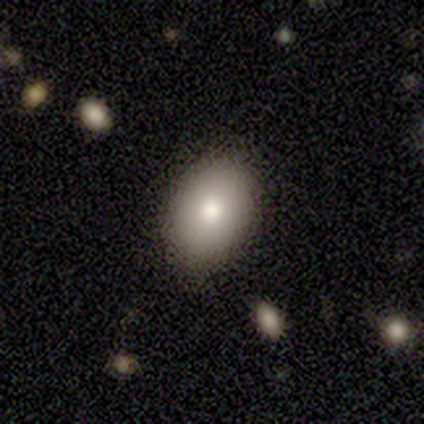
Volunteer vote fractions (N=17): Overall: smooth (76%). How rounded: in between (100%). Merging: none (93%).